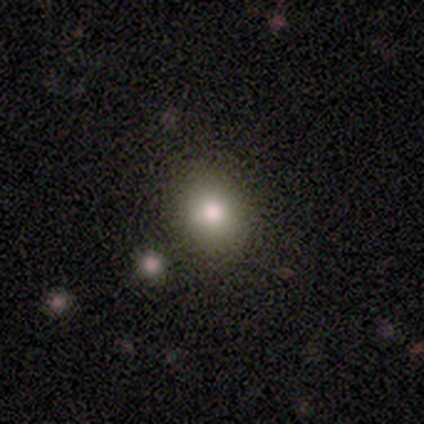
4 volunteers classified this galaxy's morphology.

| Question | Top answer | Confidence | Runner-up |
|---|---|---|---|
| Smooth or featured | smooth | 75% | star or artifact (25%) |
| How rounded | round | 100% | — |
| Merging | none | 100% | — |